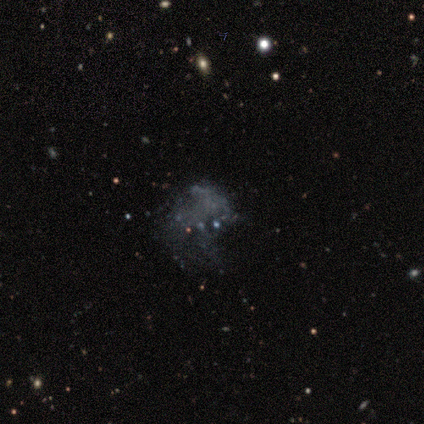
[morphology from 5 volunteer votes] smooth_or_featured: featured or disk (p=0.60) [alt: smooth p=0.40]
disk_edge_on: no (p=1.00)
bar: no (p=1.00)
has_spiral_arms: no (p=1.00)
bulge_size: none (p=1.00)
merging: major disturbance (p=0.60) [alt: minor disturbance p=0.40]